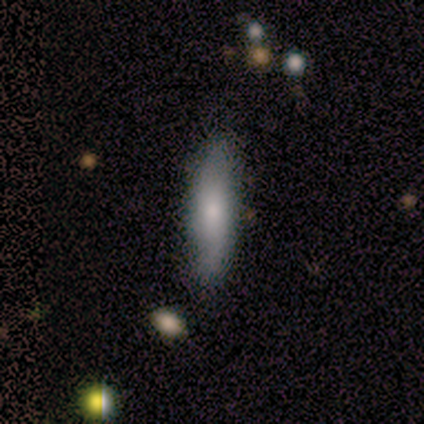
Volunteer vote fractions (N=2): smooth 100%, featured or disk 0%, star or artifact 0%. Down the decision tree: how rounded — in between (50%, tied with cigar-shaped); merging — none (100%).